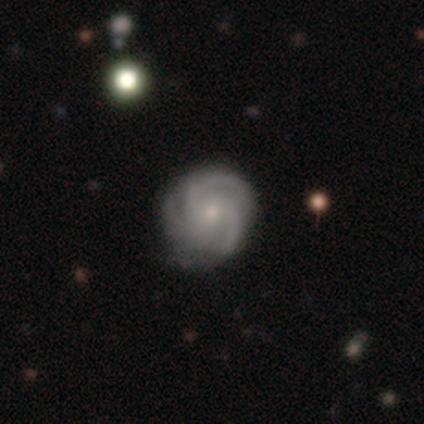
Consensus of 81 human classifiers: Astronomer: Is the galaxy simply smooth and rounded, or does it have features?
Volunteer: featured or disk — 91%.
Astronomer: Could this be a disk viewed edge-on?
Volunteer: no — 97%.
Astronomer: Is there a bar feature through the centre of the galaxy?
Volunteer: no — 85%.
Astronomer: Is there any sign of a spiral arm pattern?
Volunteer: yes — 100%.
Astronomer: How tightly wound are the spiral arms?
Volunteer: tight — 51% (runner-up: medium, 46%).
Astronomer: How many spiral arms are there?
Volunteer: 3 — 76%.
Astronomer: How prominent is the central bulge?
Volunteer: small — 69%.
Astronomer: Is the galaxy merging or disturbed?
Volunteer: none — 35% (runner-up: minor disturbance, 15%).